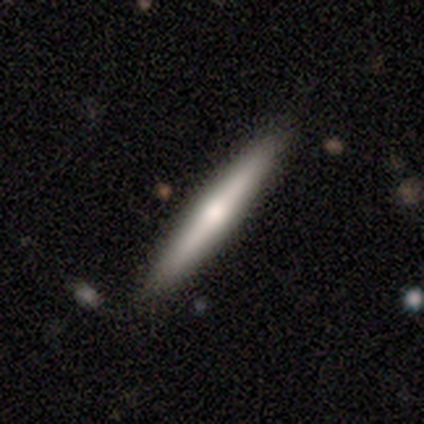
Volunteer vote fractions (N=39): This appears to be a featured or disk galaxy (54%) viewed edge-on (100%) with a rounded central bulge (71%). Merging: none (100%).